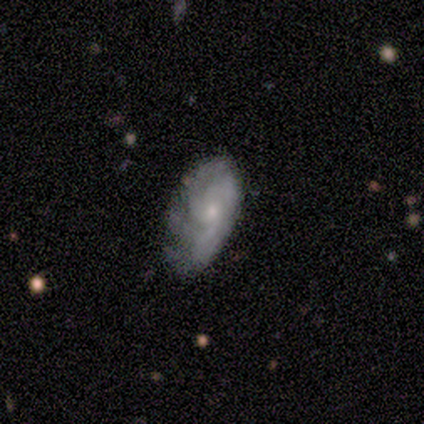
A featured or disk galaxy (60%) with no bar (100%), 3 (50%, tied with can't tell) tight (50%, tied with medium) spiral arms (100%) and a moderate central bulge (50%, tied with small). Merging: none (60%).